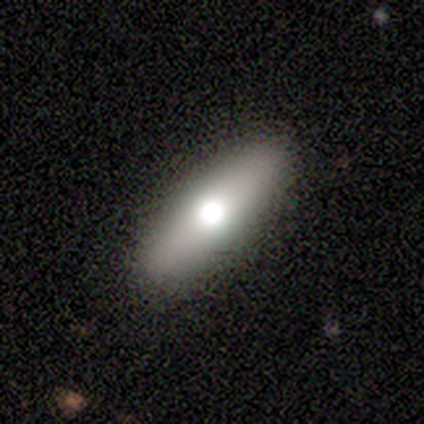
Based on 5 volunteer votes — This appears to be a smooth galaxy with no disk features (60%) that is round (33%, tied with in between and cigar-shaped). Merging: none (75%).